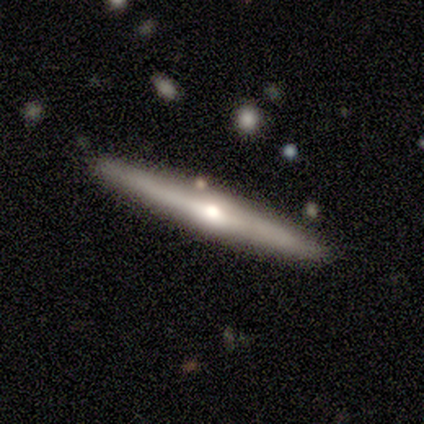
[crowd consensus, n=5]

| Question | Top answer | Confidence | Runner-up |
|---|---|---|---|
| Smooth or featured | featured or disk | 80% | star or artifact (20%) |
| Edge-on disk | yes | 100% | — |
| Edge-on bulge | rounded | 75% | none (25%) |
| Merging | none | 100% | — |